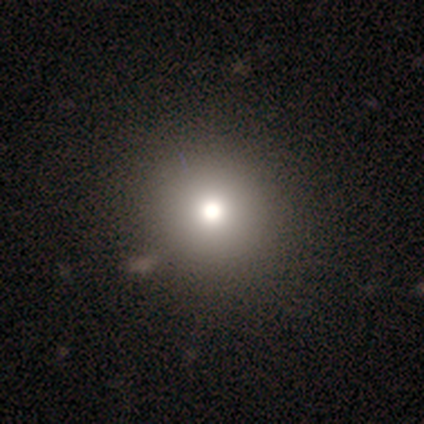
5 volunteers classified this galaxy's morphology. smooth_or_featured: smooth (p=0.60) [alt: featured or disk p=0.20]
how_rounded: round (p=1.00)
merging: none (p=0.75) [alt: merger p=0.25]